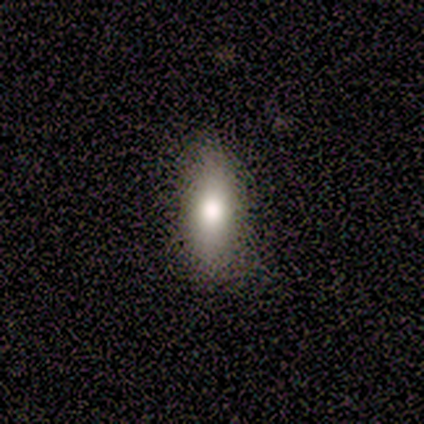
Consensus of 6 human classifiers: This appears to be a smooth galaxy with no disk features (100%) that is in between round and cigar-shaped (100%). Merging: none (100%).